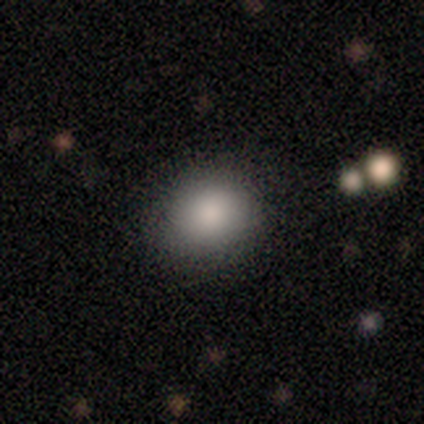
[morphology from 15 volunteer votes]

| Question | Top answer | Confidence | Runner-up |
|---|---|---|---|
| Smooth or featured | smooth | 93% | featured or disk (7%) |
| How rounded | round | 71% | in between (29%) |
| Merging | none | 87% | minor disturbance (7%) |